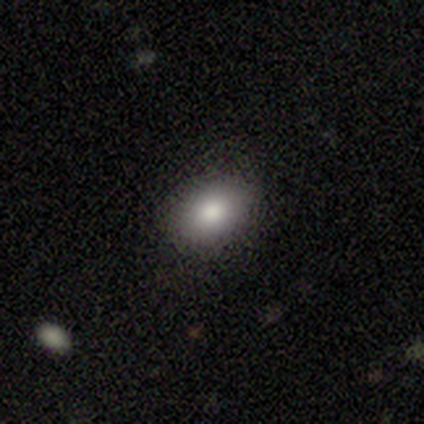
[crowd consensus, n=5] This appears to be a smooth galaxy with no disk features (100%) that is in between round and cigar-shaped (100%). Merging: none (100%).